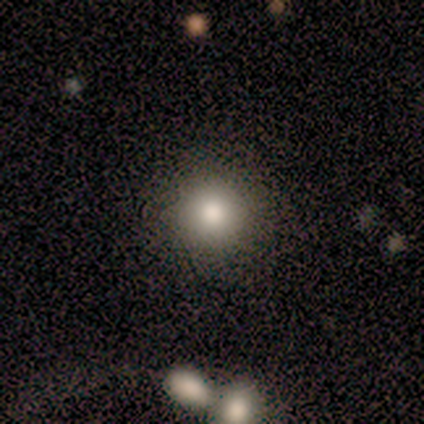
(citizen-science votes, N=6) This is clearly a smooth galaxy (83%). How rounded: clearly round (80%). Merging: clearly none (100%).